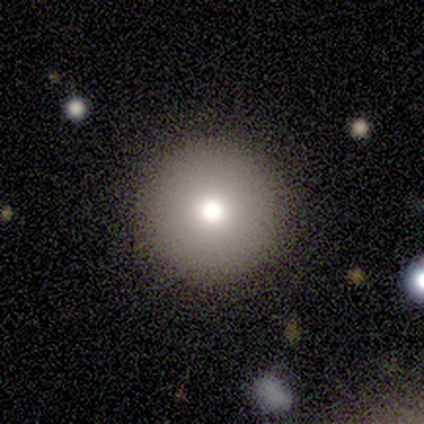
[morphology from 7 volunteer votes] Volunteers were most divided on "smooth or featured": smooth: 71%, featured or disk: 14%, star or artifact: 14%. More confident: how rounded — round (100%); merging — none (83%).